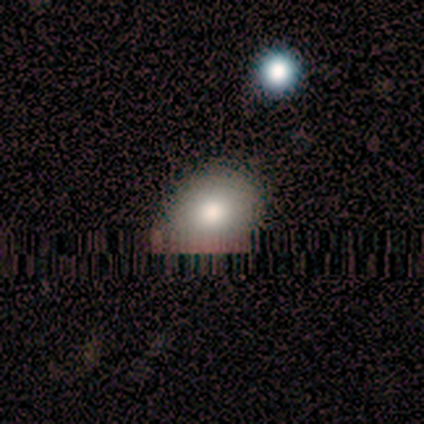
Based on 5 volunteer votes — smooth-or-featured: smooth: 100% | featured or disk: 0% | star or artifact: 0%
  how-rounded: in between: 80% | round: 20% | cigar-shaped: 0%
  merging: none: 100% | minor disturbance: 0% | major disturbance: 0% | merger: 0%